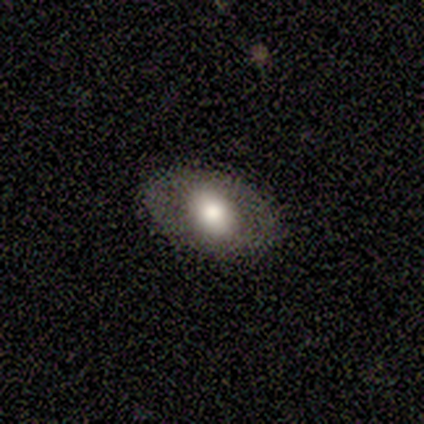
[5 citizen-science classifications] smooth_or_featured: featured or disk (p=0.60) [alt: smooth p=0.40]
disk_edge_on: no (p=1.00)
bar: no (p=0.67) [alt: weak p=0.33]
has_spiral_arms: no (p=1.00)
bulge_size: large (p=1.00)
merging: none (p=0.80) [alt: minor disturbance p=0.20]